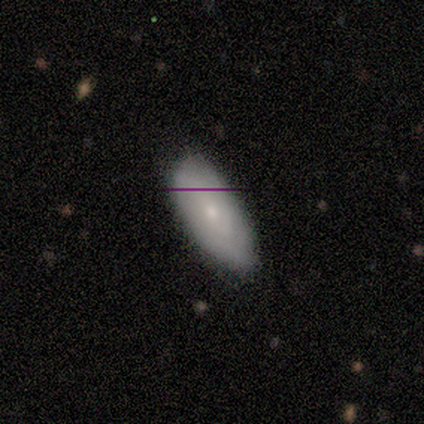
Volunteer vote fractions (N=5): Volunteers were most divided on "smooth or featured": smooth: 60%, featured or disk: 40%, star or artifact: 0%. More confident: merging — none (100%); how rounded — in between (67%).